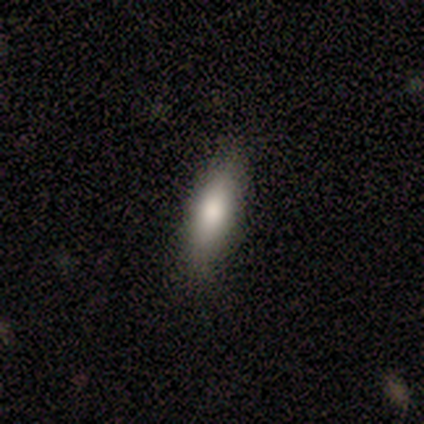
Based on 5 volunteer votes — Smooth or featured? 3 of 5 (60%) said smooth. How rounded? 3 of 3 (100%) said in between. Merging? 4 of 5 (80%) said none.